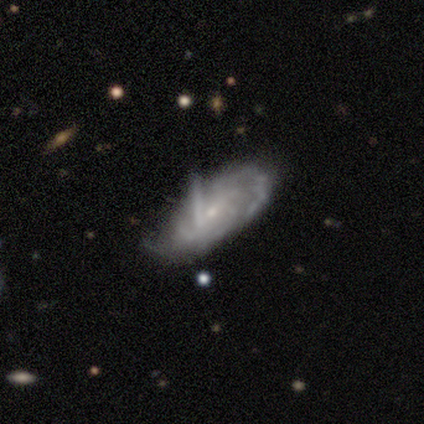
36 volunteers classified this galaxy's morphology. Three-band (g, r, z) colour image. It shows a featured or disk galaxy (86%) with no bar (55%), tight (64%) spiral arms (86%) and a small central bulge (62%). Merging: none (43%).